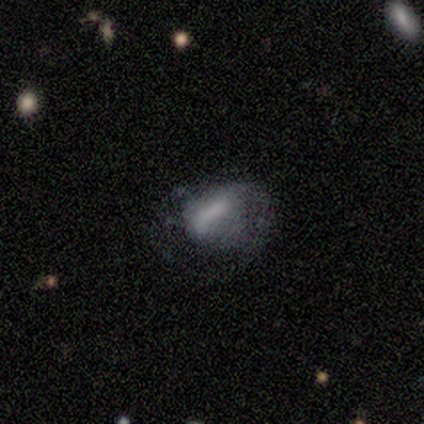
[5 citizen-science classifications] Morphology: type=smooth (80%); roundness=in between (100%); merging=major disturbance (60%).